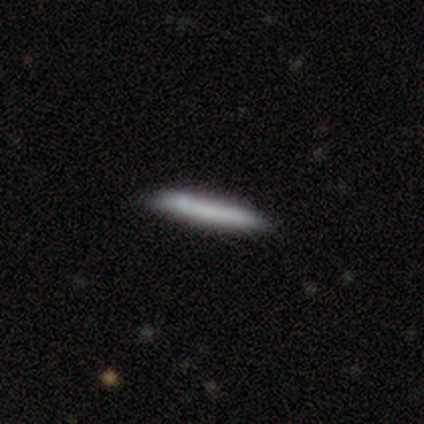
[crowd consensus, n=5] Smooth or featured? smooth (80%)
How rounded? cigar-shaped (100%)
Merging? none (100%)